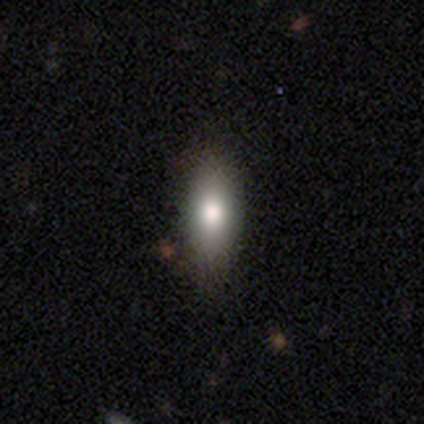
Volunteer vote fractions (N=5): Smooth or featured? 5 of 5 (100%) said smooth. How rounded? 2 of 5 (40%, tied with in between) said round. Merging? 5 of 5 (100%) said none.